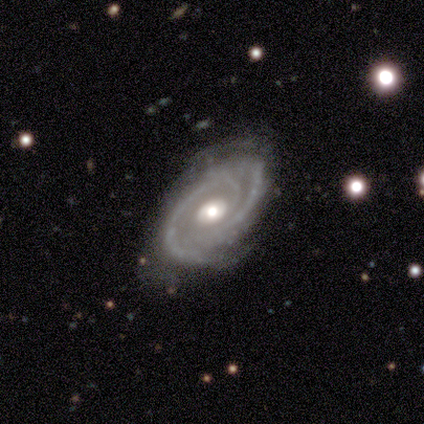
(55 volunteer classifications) Q: Smooth or featured?
A: featured or disk (96%); runner-up: smooth (4%)
Q: Edge-on disk?
A: no (96%); runner-up: yes (4%)
Q: Bar?
A: no (88%); runner-up: weak (10%)
Q: Spiral arms?
A: yes (100%)
Q: Spiral winding?
A: tight (71%); runner-up: medium (27%)
Q: Spiral arm count?
A: 2 (80%); runner-up: 3 (12%)
Q: Bulge size?
A: moderate (73%); runner-up: large (20%)
Q: Merging?
A: none (67%); runner-up: minor disturbance (24%)